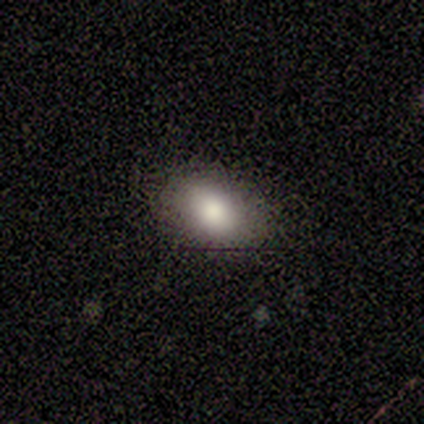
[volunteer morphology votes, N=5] smooth 100%, featured or disk 0%, star or artifact 0%. Down the decision tree: how rounded — in between (100%); merging — none (100%).